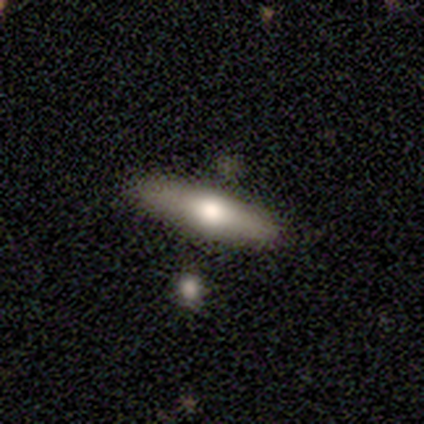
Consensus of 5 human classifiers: Volunteers were most divided on "smooth or featured": smooth: 60%, featured or disk: 40%, star or artifact: 0%. More confident: merging — none (80%); how rounded — cigar-shaped (67%).